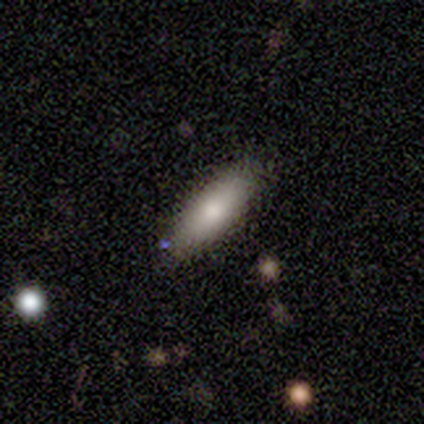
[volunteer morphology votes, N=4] Smooth or featured: smooth — 50% (tied with featured or disk — 50%)
How rounded: cigar-shaped — 100%
Merging: none — 100%